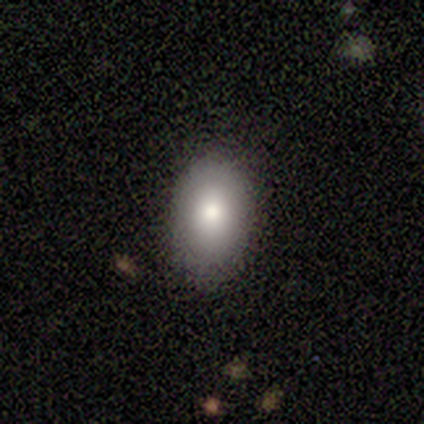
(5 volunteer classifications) Smooth or featured?
  - smooth: 100% *
  - featured or disk: 0%
  - star or artifact: 0%
How rounded?
  - in between: 100% *
  - round: 0%
  - cigar-shaped: 0%
Merging?
  - none: 100% *
  - minor disturbance: 0%
  - major disturbance: 0%
  - merger: 0%